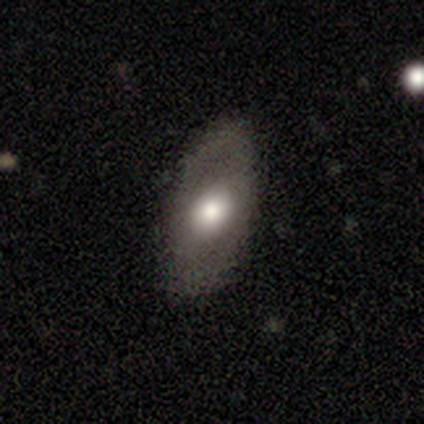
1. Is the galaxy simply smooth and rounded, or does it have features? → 51% smooth, 38% featured or disk, 10% star or artifact.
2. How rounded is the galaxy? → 90% in between, 10% round, 0% cigar-shaped.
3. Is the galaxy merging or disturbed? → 71% none, 20% minor disturbance, 6% major disturbance, 3% merger.